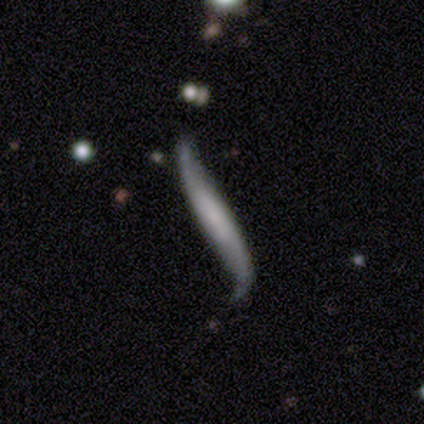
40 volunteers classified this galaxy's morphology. A featured or disk galaxy (78%) viewed edge-on (52%) with no central bulge (62%).

Vote fractions:
- Smooth or featured? featured or disk: 78% / smooth: 20% / star or artifact: 2%
- Edge-on disk? yes: 52% / no: 48%
- Edge-on bulge? none: 62% / rounded: 25% / boxy: 12%
- Merging? none: 46% (tied) / minor disturbance: 46% (tied) / major disturbance: 5% / merger: 3%